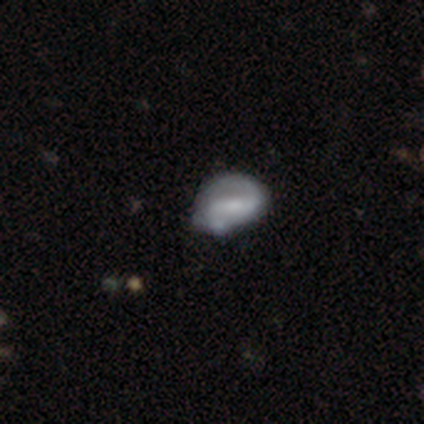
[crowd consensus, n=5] Smooth or featured? featured or disk (60%)
Edge-on disk? no (100%)
Bar? no (67%)
Spiral arms? yes (67%)
Spiral winding? loose (100%)
Spiral arm count? 1 (50%, tied with 2)
Bulge size? none (67%)
Merging? minor disturbance (60%)